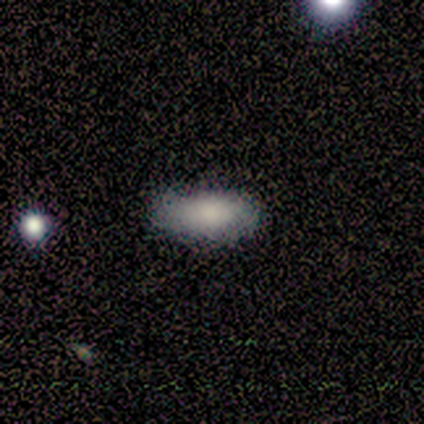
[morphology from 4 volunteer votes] smooth 100%, featured or disk 0%, star or artifact 0%. Down the decision tree: how rounded — in between (100%); merging — none (75%).